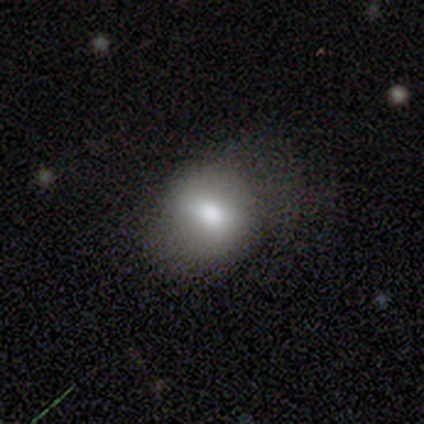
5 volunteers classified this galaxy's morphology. Volunteers were most divided on "how rounded" (2-way tie): round: 50%, in between: 50%, cigar-shaped: 0%; "merging" (2-way tie): minor disturbance: 40%, major disturbance: 40%, none: 20%, merger: 0%. More confident: smooth or featured — smooth (80%).